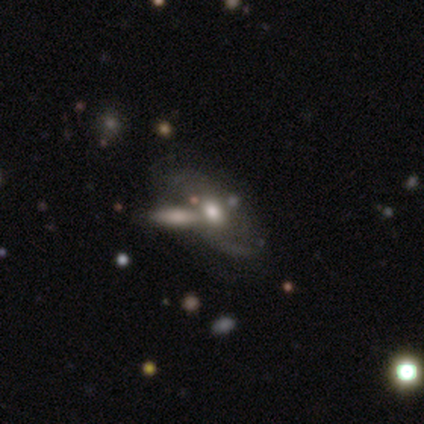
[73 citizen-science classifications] A featured or disk galaxy (79%) with no bar (92%), 2 (55%) loose (48%) spiral arms (58%) and a moderate central bulge (66%).

Vote fractions:
- Smooth or featured? featured or disk: 79% / smooth: 14% / star or artifact: 7%
- Edge-on disk? no: 91% / yes: 9%
- Bar? no: 92% / weak: 8% / strong: 0%
- Spiral arms? yes: 58% / no: 42%
- Spiral winding? loose: 48% / medium: 45% / tight: 6%
- Spiral arm count? 2: 55% / can't tell: 35% / 1: 10% / 3: 0% / 4: 0% / more than 4: 0%
- Bulge size? moderate: 66% / large: 21% / small: 9% / dominant: 4% / none: 0%
- Merging? none: 40% / merger: 38% / minor disturbance: 13% / major disturbance: 9%